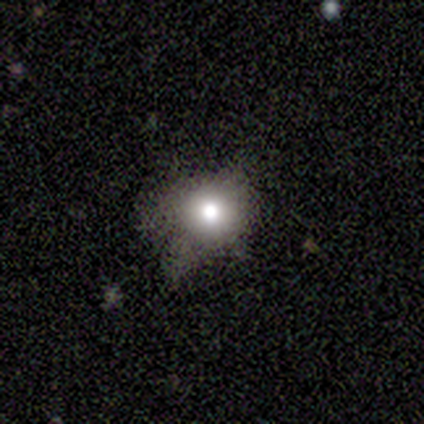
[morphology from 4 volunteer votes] Smooth or featured? 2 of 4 (50%, tied with star or artifact) said smooth. How rounded? 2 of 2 (100%) said round. Merging? 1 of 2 (50%, tied with major disturbance) said none.